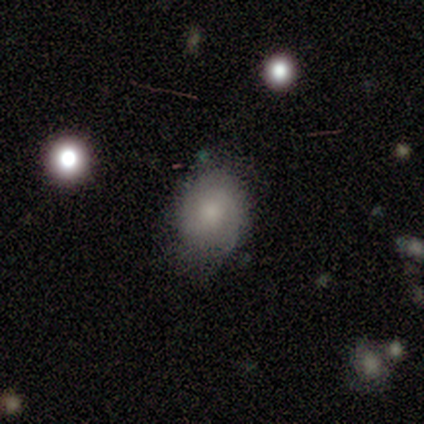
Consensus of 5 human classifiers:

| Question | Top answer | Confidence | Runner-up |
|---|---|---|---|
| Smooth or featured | featured or disk | 60% | smooth (20%) |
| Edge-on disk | no | 100% | — |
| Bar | no | 100% | — |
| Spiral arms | yes | 100% | — |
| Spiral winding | medium | 67% | tight (33%) |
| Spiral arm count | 2 | 100% | — |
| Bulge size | moderate | 33% | tied: small (33%), none (33%) |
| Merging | none | 50% | tied: minor disturbance (50%) |